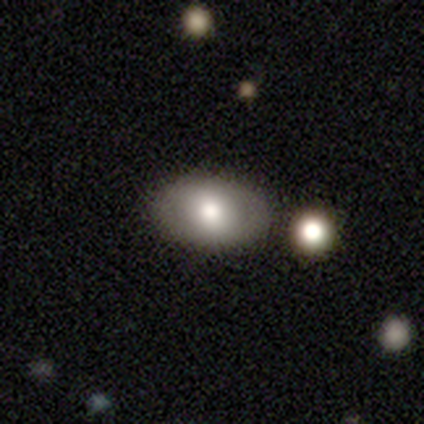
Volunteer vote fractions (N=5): Smooth or featured? smooth (60%)
How rounded? in between (100%)
Merging? none (100%)